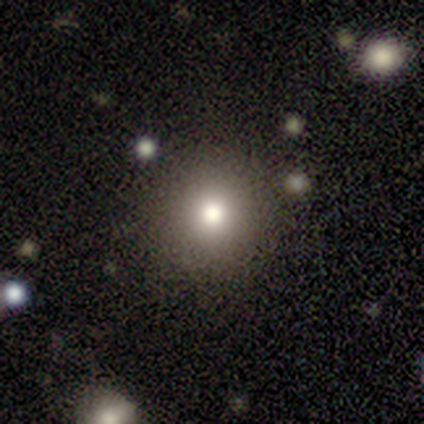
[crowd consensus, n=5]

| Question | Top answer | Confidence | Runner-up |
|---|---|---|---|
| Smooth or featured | smooth | 80% | star or artifact (20%) |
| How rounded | round | 100% | — |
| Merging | none | 100% | — |